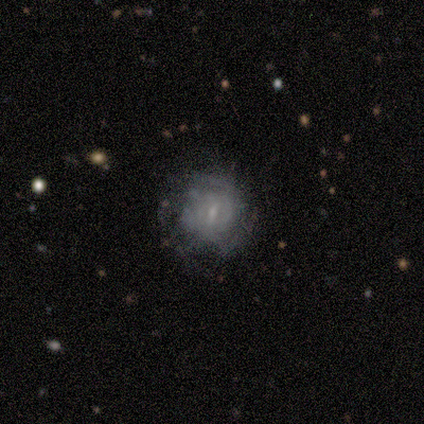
Smooth or featured? smooth (50%, tied with featured or disk)
How rounded? round (100%)
Merging? none (75%)